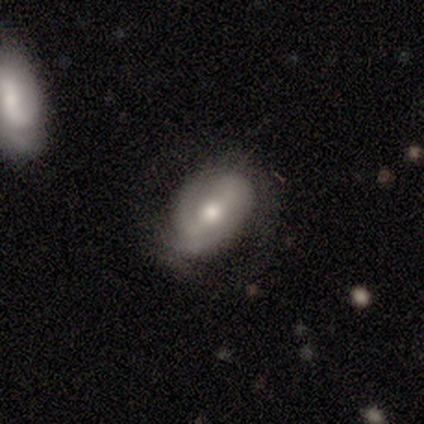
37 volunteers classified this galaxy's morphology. type=featured or disk (73%); edge-on=no (89%); bar=strong (46%); spiral arms=yes (71%); winding=tight (53%); arm count=2 (47%); bulge=moderate (75%); merging=none (61%).